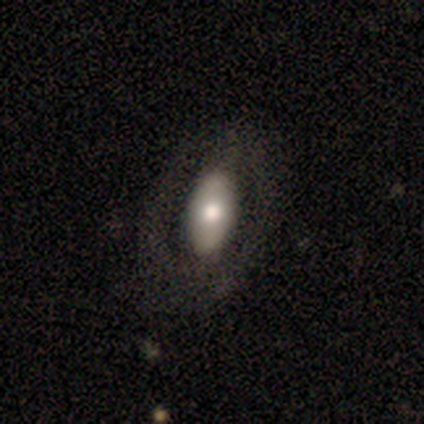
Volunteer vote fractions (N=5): Smooth or featured: smooth — 40% (tied with featured or disk — 40%)
How rounded: in between — 100%
Merging: none — 100%